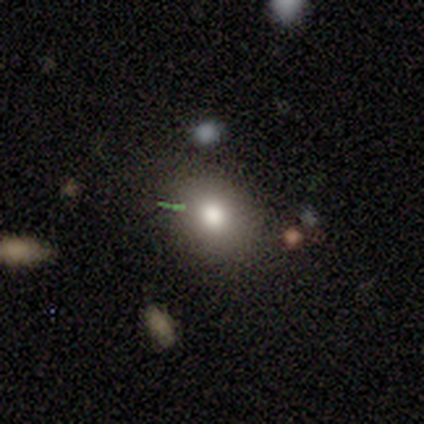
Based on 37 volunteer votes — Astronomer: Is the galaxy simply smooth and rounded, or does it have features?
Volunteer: smooth — 73%.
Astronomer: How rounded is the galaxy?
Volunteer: round — 63%.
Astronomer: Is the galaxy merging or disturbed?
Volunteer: none — 84%.